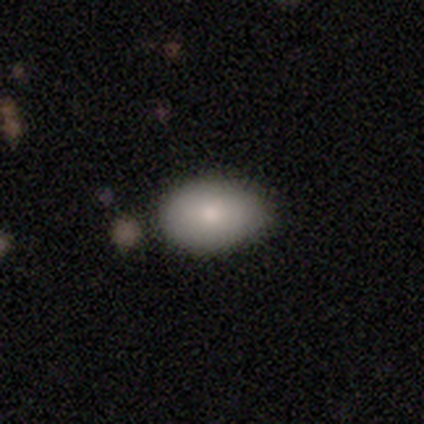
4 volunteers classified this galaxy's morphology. A smooth galaxy with no disk features (100%) that is in between round and cigar-shaped (100%).

Vote fractions:
- Smooth or featured? smooth: 100% / featured or disk: 0% / star or artifact: 0%
- How rounded? in between: 100% / round: 0% / cigar-shaped: 0%
- Merging? none: 75% / minor disturbance: 25% / major disturbance: 0% / merger: 0%